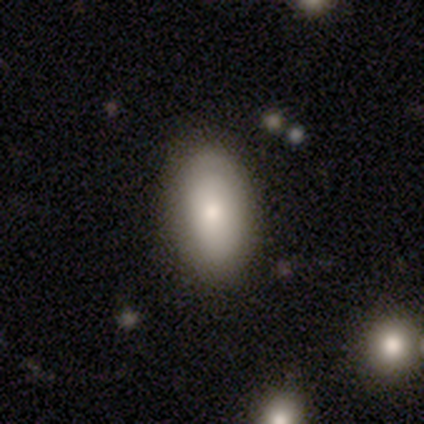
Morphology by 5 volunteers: This is clearly a smooth galaxy (80%). How rounded: likely in between (75%). Merging: clearly none (80%).